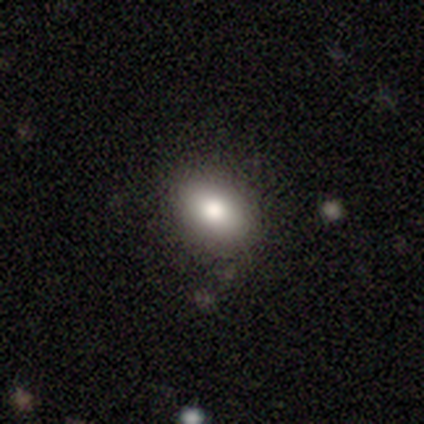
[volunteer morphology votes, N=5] Overall: smooth (60%; featured or disk 20%). How rounded: round (67%; in between 33%). Merging: none (100%).